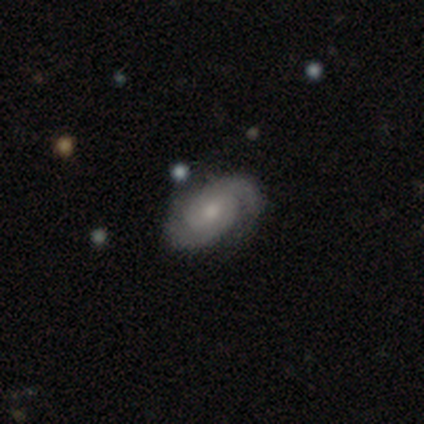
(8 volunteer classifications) This is clearly a featured or disk galaxy (100%). It is clearly not viewed edge-on (100%). Bar: clearly no (88%). Spiral arm pattern: clearly yes (100%). Spiral arm count: likely 2 (62%). Spiral winding: likely tight (62%). Central bulge: possibly moderate (50%). Merging: clearly none (100%).